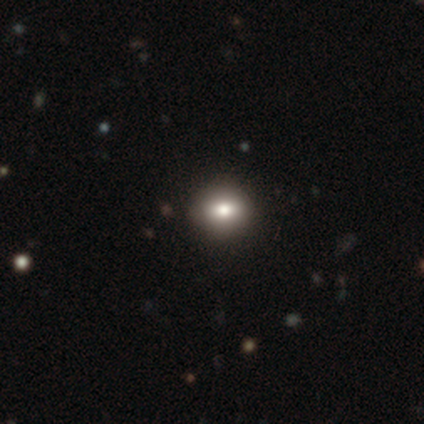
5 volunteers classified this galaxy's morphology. Smooth or featured? 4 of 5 (80%) said star or artifact.